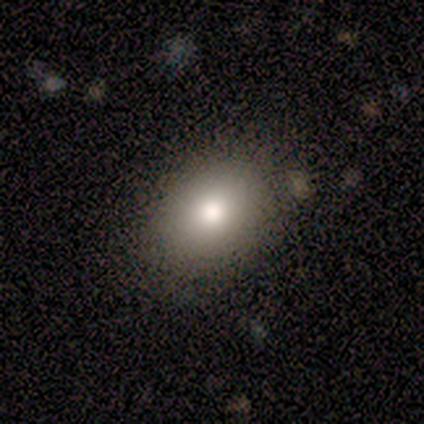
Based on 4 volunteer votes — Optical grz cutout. It shows a smooth galaxy with no disk features (75%) that is in between round and cigar-shaped (100%). Merging: none (100%).